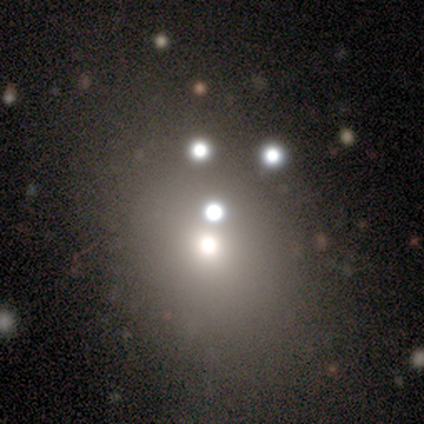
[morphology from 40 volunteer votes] Smooth or featured? smooth (62%)
How rounded? round (76%)
Merging? none (74%)